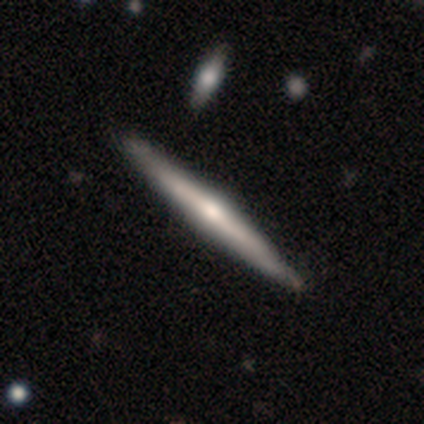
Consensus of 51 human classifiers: Smooth or featured? featured or disk (82%)
Edge-on disk? yes (100%)
Edge-on bulge? rounded (76%)
Merging? none (88%)